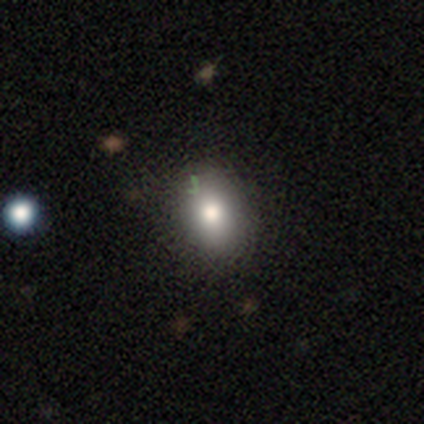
smooth_or_featured: smooth (p=0.87) [alt: featured or disk p=0.08]
how_rounded: in between (p=0.76) [alt: round p=0.24]
merging: none (p=0.61) [alt: minor disturbance p=0.03]